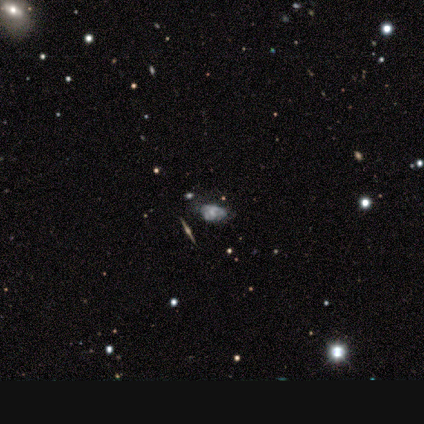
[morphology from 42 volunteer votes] A featured or disk galaxy (55%) with no bar (94%), no spiral arms (69%) and a small central bulge (44%). Merging: none (54%).